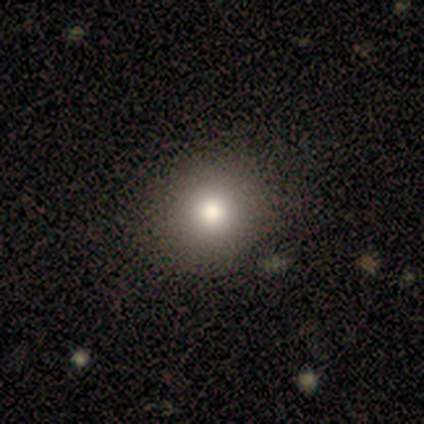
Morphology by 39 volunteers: This is clearly a smooth galaxy (82%). How rounded: clearly round (91%). Merging: likely none (68%).